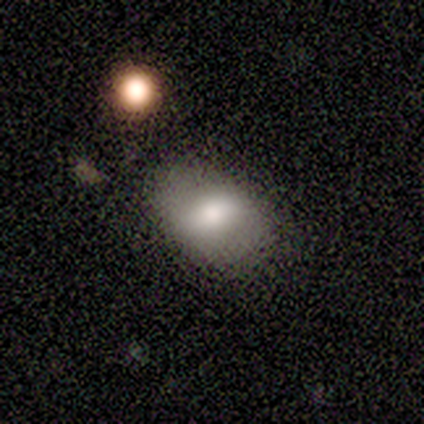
Q: Smooth or featured?
A: smooth (67%); runner-up: featured or disk (33%)
Q: How rounded?
A: in between (100%)
Q: Merging?
A: none (67%); runner-up: minor disturbance (33%)